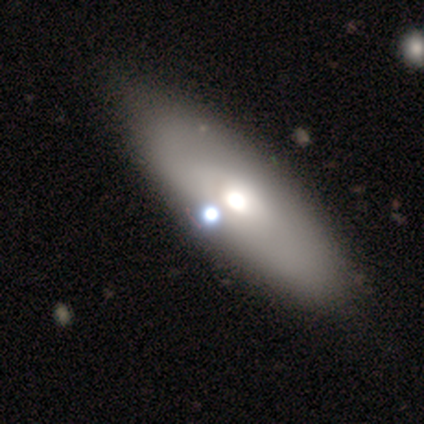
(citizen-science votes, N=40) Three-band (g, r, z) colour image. It shows a smooth galaxy with no disk features (62%) that is in between round and cigar-shaped (84%). Merging: none (53%).